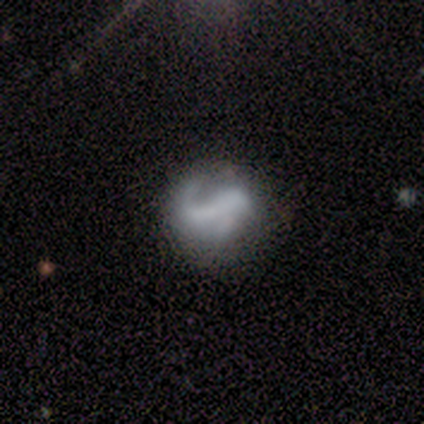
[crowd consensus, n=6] This is likely a featured or disk galaxy (67%). It is clearly not viewed edge-on (100%). Bar: clearly strong (100%). Spiral arm pattern: clearly yes (100%). Spiral arm count: likely 2 (75%). Spiral winding: possibly medium (50%, tied with loose). Central bulge: likely none (75%). Merging: likely none (67%).